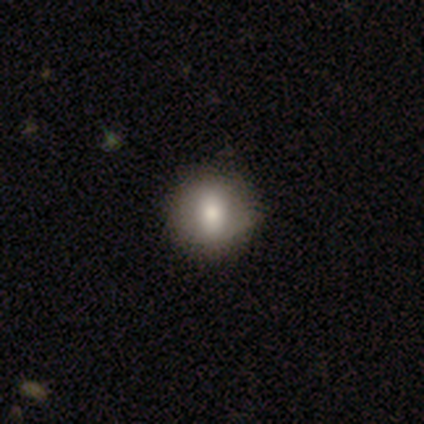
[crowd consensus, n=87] Q: Smooth or featured?
A: smooth (77%); runner-up: featured or disk (16%)
Q: How rounded?
A: round (84%); runner-up: in between (15%)
Q: Merging?
A: none (83%); runner-up: minor disturbance (14%)